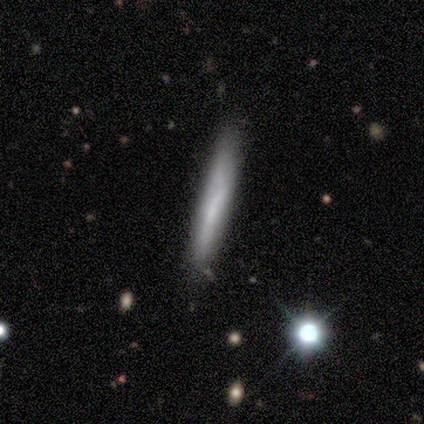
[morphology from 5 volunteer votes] smooth-or-featured: featured or disk: 60% | smooth: 40% | star or artifact: 0%
  disk-edge-on: yes: 100% | no: 0%
    edge-on-bulge: none: 100% | boxy: 0% | rounded: 0%
  merging: none: 100% | minor disturbance: 0% | major disturbance: 0% | merger: 0%